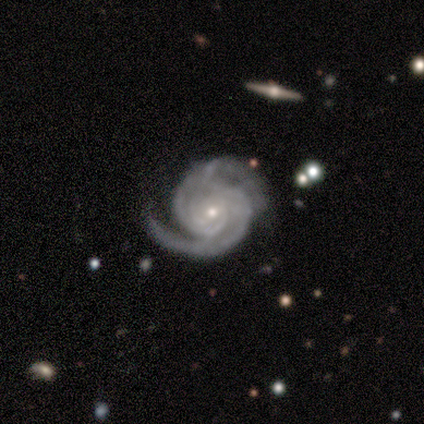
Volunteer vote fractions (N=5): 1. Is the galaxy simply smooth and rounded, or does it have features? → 100% featured or disk, 0% smooth, 0% star or artifact.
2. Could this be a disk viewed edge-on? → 100% no, 0% yes.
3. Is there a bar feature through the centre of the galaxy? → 80% no, 20% weak, 0% strong.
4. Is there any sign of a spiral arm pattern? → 100% yes, 0% no.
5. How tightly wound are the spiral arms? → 80% tight, 20% medium, 0% loose.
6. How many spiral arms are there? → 80% 2, 20% can't tell, 0% 1, 0% 3, 0% 4, 0% more than 4.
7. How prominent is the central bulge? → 100% small, 0% dominant, 0% large, 0% moderate, 0% none.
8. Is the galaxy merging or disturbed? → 40% none (tied), 40% minor disturbance (tied), 20% major disturbance, 0% merger.